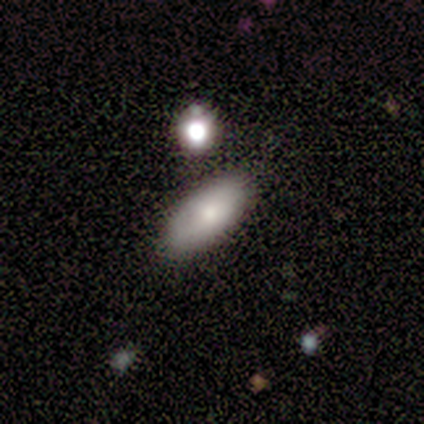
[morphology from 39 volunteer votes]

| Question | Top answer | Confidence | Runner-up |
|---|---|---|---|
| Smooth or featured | smooth | 77% | featured or disk (15%) |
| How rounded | in between | 87% | cigar-shaped (13%) |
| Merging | none | 83% | minor disturbance (14%) |